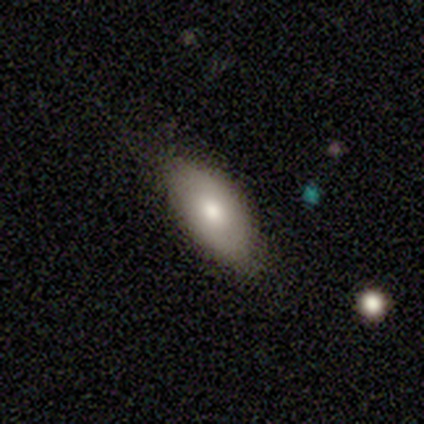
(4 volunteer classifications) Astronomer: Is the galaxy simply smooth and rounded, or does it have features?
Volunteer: smooth — 75%.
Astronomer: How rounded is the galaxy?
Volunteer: in between — 100%.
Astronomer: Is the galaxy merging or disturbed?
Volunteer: none — 100%.